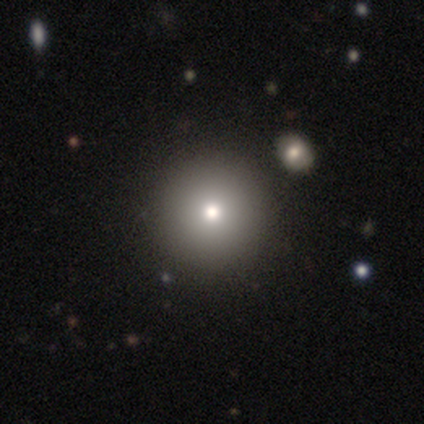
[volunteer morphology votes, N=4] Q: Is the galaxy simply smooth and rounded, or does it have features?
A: featured or disk — 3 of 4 (75%).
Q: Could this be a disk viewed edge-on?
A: no — 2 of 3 (67%).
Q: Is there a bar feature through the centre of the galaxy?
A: no — 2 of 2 (100%).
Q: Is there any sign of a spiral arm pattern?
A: no — 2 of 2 (100%).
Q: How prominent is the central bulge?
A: moderate — 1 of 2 (50%, tied with small).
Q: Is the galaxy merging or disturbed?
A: none — 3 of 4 (75%).